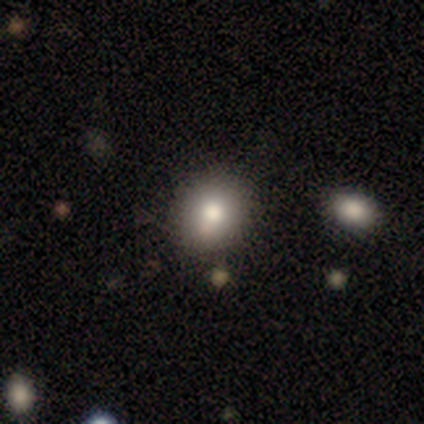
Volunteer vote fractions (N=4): Morphology: type=smooth (75%); roundness=round (100%); merging=none (100%).